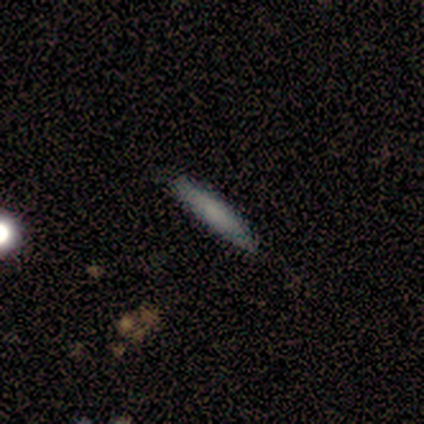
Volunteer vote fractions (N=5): smooth-or-featured: featured or disk: 80% | smooth: 20% | star or artifact: 0%
  disk-edge-on: yes: 100% | no: 0%
    edge-on-bulge: none: 75% | rounded: 25% | boxy: 0%
  merging: none: 60% | minor disturbance: 40% | major disturbance: 0% | merger: 0%